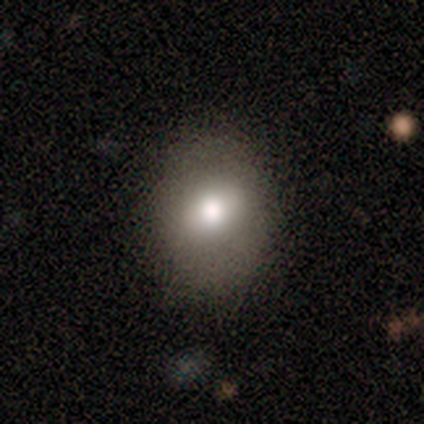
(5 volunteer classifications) smooth_or_featured: smooth (p=0.80) [alt: star or artifact p=0.20]
how_rounded: round (p=0.50) [tied with: in between p=0.50]
merging: none (p=1.00)